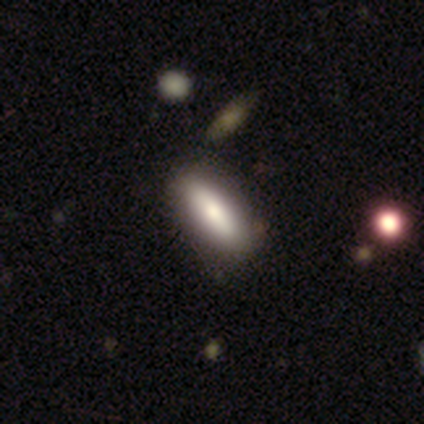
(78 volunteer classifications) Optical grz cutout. It shows a smooth galaxy with no disk features (78%) that is in between round and cigar-shaped (61%). Merging: none (43%).